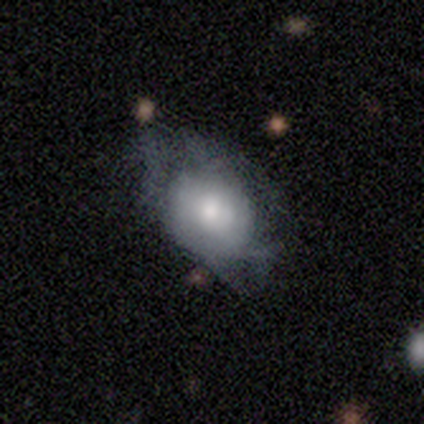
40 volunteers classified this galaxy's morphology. A smooth galaxy with no disk features (55%) that is in between round and cigar-shaped (55%). Merging: major disturbance (46%).